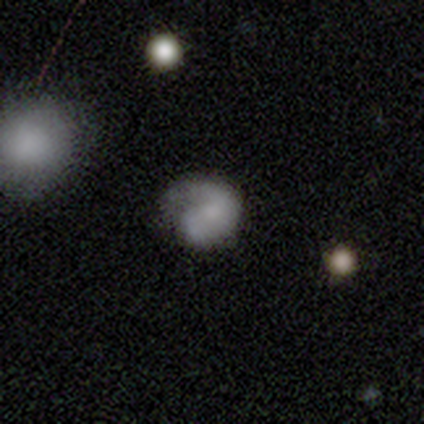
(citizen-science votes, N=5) A smooth galaxy with no disk features (60%) that is round (67%).

Vote fractions:
- Smooth or featured? smooth: 60% / featured or disk: 40% / star or artifact: 0%
- How rounded? round: 67% / in between: 33% / cigar-shaped: 0%
- Merging? minor disturbance: 40% (tied) / major disturbance: 40% (tied) / none: 20% / merger: 0%